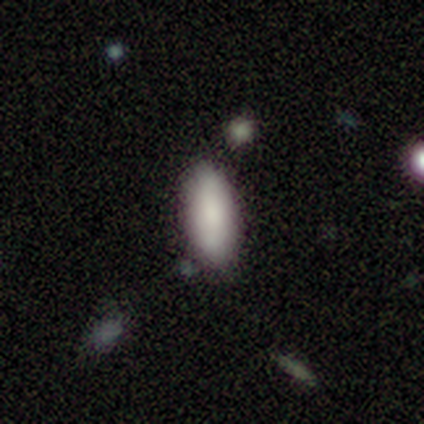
Overall: smooth (89%). How rounded: in between (88%). Merging: none (67%).